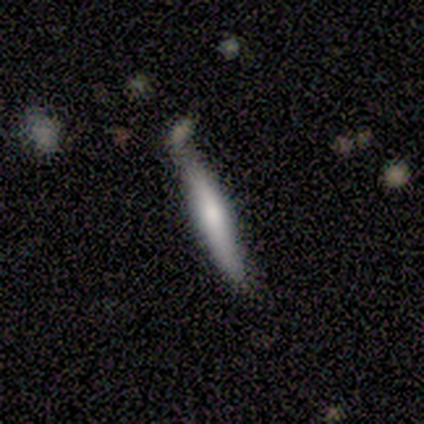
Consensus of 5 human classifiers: smooth-or-featured: smooth: 60% | featured or disk: 40% | star or artifact: 0%
  how-rounded: cigar-shaped: 100% | round: 0% | in between: 0%
  merging: none: 60% | minor disturbance: 40% | major disturbance: 0% | merger: 0%